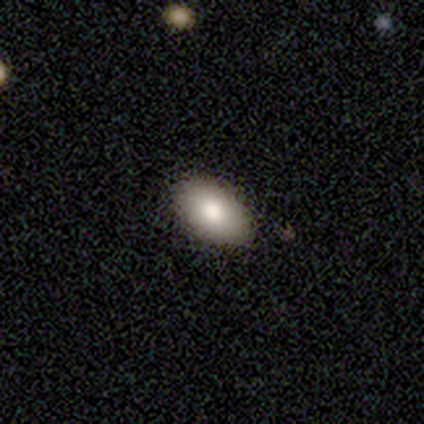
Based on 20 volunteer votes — Volunteers were most divided on "smooth or featured": smooth: 80%, featured or disk: 15%, star or artifact: 5%. More confident: how rounded — in between (94%); merging — none (89%).